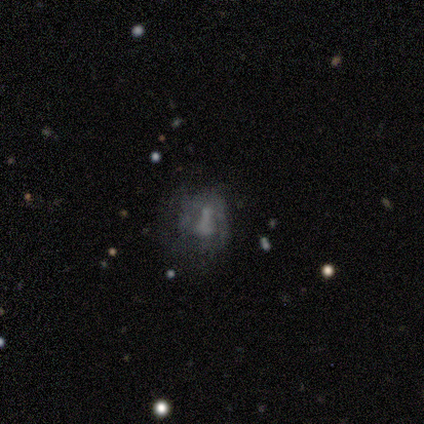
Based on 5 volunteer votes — A featured or disk galaxy (80%) with no bar (75%), no spiral arms (100%) and no central bulge (75%). Merging: none (50%).